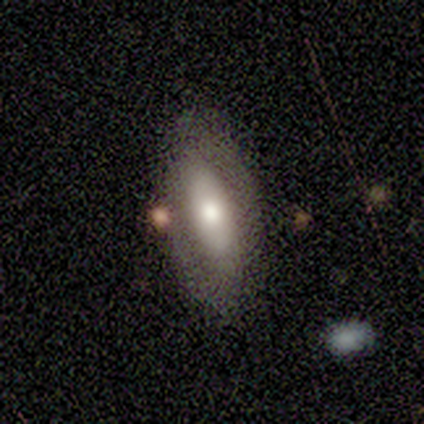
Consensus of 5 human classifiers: Smooth or featured? featured or disk (60%)
Edge-on disk? no (100%)
Bar? weak (67%)
Spiral arms? no (100%)
Bulge size? moderate (67%)
Merging? none (100%)